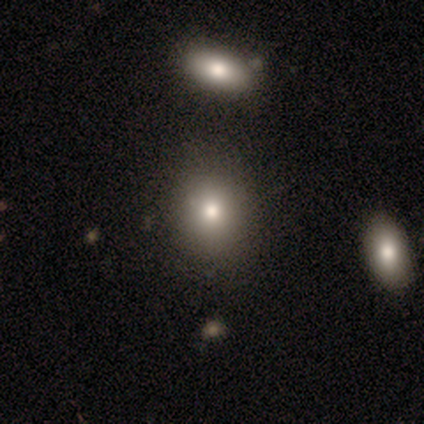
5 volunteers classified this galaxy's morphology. Smooth or featured?
  - smooth: 80% *
  - star or artifact: 20%
  - featured or disk: 0%
How rounded?
  - round: 100% *
  - in between: 0%
  - cigar-shaped: 0%
Merging?
  - none: 100% *
  - minor disturbance: 0%
  - major disturbance: 0%
  - merger: 0%